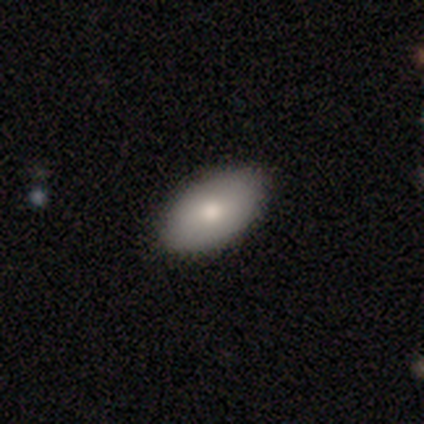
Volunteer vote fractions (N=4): Smooth or featured?
  - smooth: 50% * (tied)
  - featured or disk: 50% * (tied)
  - star or artifact: 0%
How rounded?
  - in between: 100% *
  - round: 0%
  - cigar-shaped: 0%
Merging?
  - none: 75% *
  - minor disturbance: 25%
  - major disturbance: 0%
  - merger: 0%